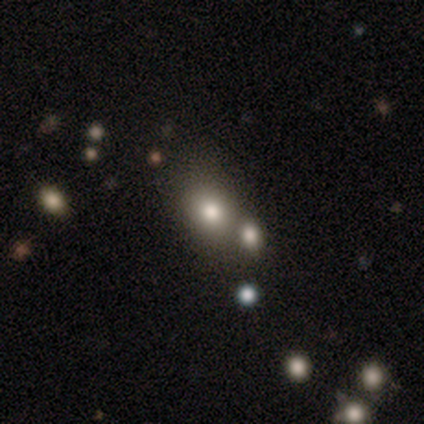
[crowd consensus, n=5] A smooth galaxy with no disk features (60%) that is round (100%).

Vote fractions:
- Smooth or featured? smooth: 60% / featured or disk: 40% / star or artifact: 0%
- How rounded? round: 100% / in between: 0% / cigar-shaped: 0%
- Merging? none: 60% / minor disturbance: 20% / merger: 20% / major disturbance: 0%